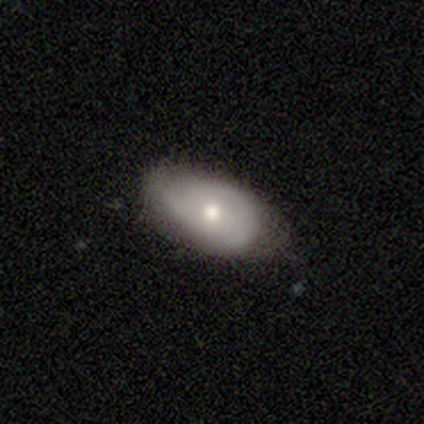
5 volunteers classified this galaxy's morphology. type=smooth (80%); roundness=in between (100%); merging=none (100%).